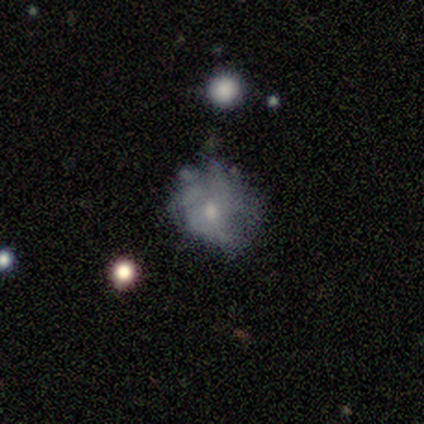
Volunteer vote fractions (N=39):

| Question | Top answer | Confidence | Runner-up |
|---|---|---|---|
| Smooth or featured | featured or disk | 54% | smooth (28%) |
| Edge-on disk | no | 100% | — |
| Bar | no | 62% | weak (38%) |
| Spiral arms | no | 57% | yes (43%) |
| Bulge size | small | 48% | moderate (43%) |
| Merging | none | 44% | major disturbance (28%) |